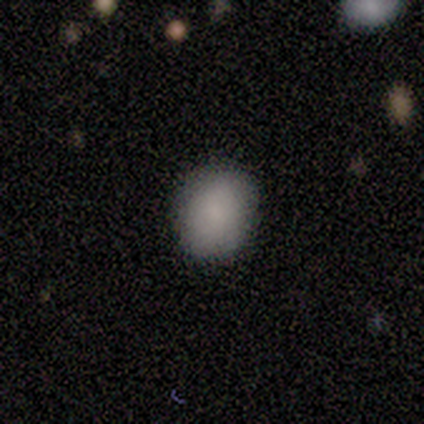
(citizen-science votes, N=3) Q: Smooth or featured?
A: smooth (67%); runner-up: featured or disk (33%)
Q: How rounded?
A: in between (100%)
Q: Merging?
A: none (67%); runner-up: minor disturbance (33%)